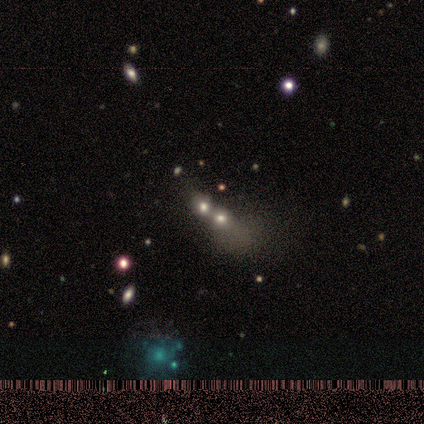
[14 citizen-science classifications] Q: Smooth or featured?
A: smooth (36%); tied with: star or artifact (36%)
Q: How rounded?
A: round (60%); runner-up: in between (40%)
Q: Merging?
A: merger (89%); runner-up: none (11%)